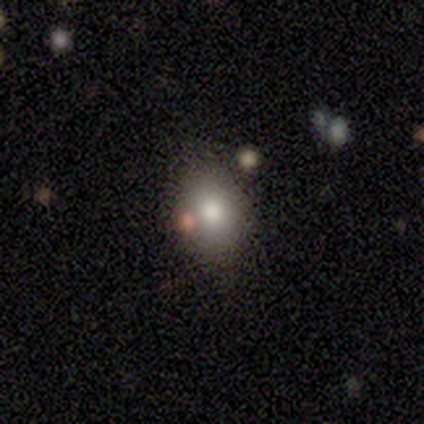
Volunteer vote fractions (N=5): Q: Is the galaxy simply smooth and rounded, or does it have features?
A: smooth — 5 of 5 (100%).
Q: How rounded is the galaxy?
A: round — 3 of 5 (60%).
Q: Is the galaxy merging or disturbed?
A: none — 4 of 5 (80%).